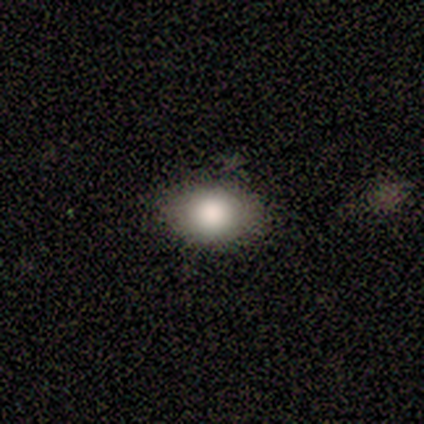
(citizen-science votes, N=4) smooth_or_featured: smooth (p=0.75) [alt: featured or disk p=0.25]
how_rounded: in between (p=1.00)
merging: none (p=0.75) [alt: major disturbance p=0.25]